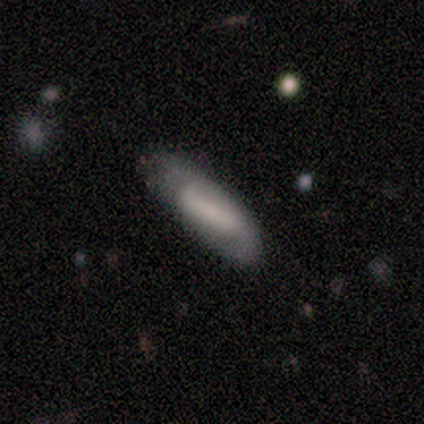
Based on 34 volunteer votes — Volunteers were most divided on "smooth or featured": featured or disk: 44%, smooth: 41%, star or artifact: 15%. Remaining: spiral arms — yes (70%); edge-on disk — no (67%); merging — none (62%); bulge size — none (60%); spiral arm count — 2 (57%); bar — no (50%); spiral winding — medium (43%).